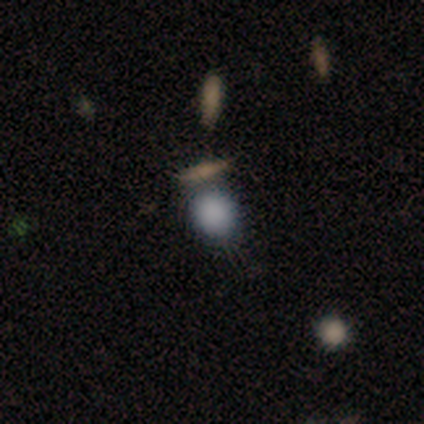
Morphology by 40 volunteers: smooth-or-featured: smooth: 82% | star or artifact: 12% | featured or disk: 5%
  how-rounded: round: 67% | in between: 27% | cigar-shaped: 6%
  merging: none: 51% | minor disturbance: 26% | merger: 20% | major disturbance: 3%